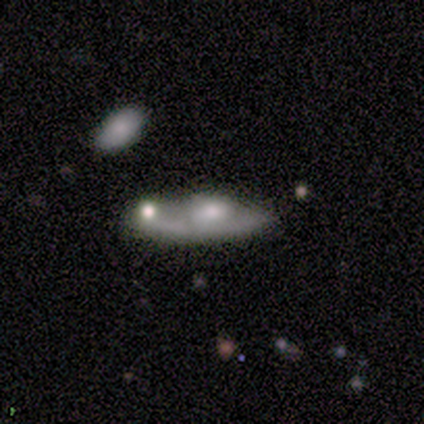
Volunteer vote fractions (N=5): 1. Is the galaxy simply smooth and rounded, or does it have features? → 100% featured or disk, 0% smooth, 0% star or artifact.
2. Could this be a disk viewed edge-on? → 60% no, 40% yes.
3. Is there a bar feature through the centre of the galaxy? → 67% weak, 33% no, 0% strong.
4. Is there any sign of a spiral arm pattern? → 67% yes, 33% no.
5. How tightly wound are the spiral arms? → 100% loose, 0% tight, 0% medium.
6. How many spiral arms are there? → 100% can't tell, 0% 1, 0% 2, 0% 3, 0% 4, 0% more than 4.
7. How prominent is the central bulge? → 67% moderate, 33% small, 0% dominant, 0% large, 0% none.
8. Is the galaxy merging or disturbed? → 40% none (tied), 40% merger (tied), 20% major disturbance, 0% minor disturbance.